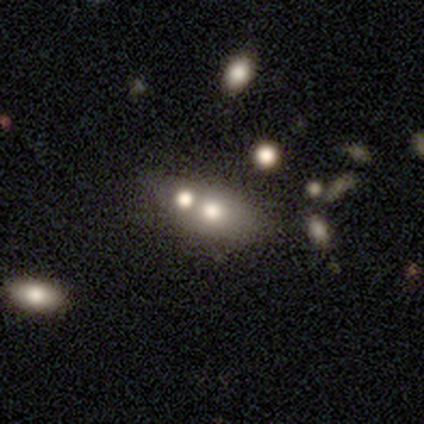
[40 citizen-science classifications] A smooth galaxy with no disk features (70%) that is in between round and cigar-shaped (82%).

Vote fractions:
- Smooth or featured? smooth: 70% / featured or disk: 25% / star or artifact: 5%
- How rounded? in between: 82% / round: 11% / cigar-shaped: 7%
- Merging? none: 45% / merger: 34% / minor disturbance: 21% / major disturbance: 0%